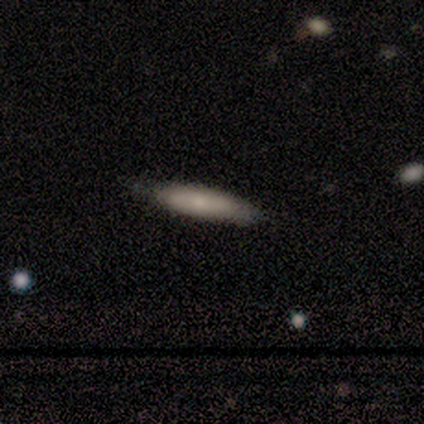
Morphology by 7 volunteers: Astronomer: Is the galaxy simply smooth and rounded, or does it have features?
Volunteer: smooth — 57%.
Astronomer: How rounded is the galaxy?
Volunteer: cigar-shaped — 75%.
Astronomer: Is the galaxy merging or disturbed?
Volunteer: none — 100%.